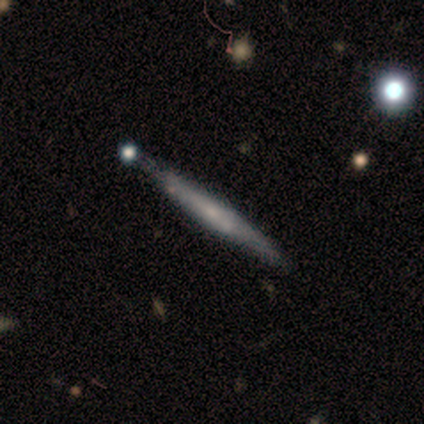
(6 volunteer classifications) A featured or disk galaxy (83%) viewed edge-on (100%) with a rounded central bulge (60%).

Vote fractions:
- Smooth or featured? featured or disk: 83% / smooth: 17% / star or artifact: 0%
- Edge-on disk? yes: 100% / no: 0%
- Edge-on bulge? rounded: 60% / none: 40% / boxy: 0%
- Merging? none: 50% / minor disturbance: 33% / merger: 17% / major disturbance: 0%